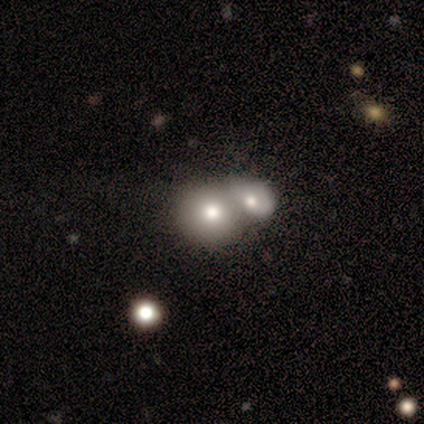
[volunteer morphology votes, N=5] Q: Smooth or featured?
A: smooth (80%); runner-up: featured or disk (20%)
Q: How rounded?
A: round (75%); runner-up: in between (25%)
Q: Merging?
A: merger (60%); runner-up: none (40%)